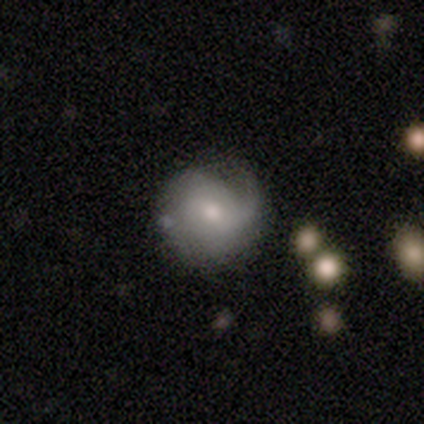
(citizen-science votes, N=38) Smooth or featured? 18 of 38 (47%) said featured or disk. Edge-on disk? 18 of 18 (100%) said no. Bar? 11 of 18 (61%) said no. Spiral arms? 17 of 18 (94%) said yes. Spiral winding? 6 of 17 (35%, tied with loose) said medium. Spiral arm count? 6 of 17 (35%, tied with 2) said 1. Bulge size? 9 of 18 (50%) said small. Merging? 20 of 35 (57%) said none.